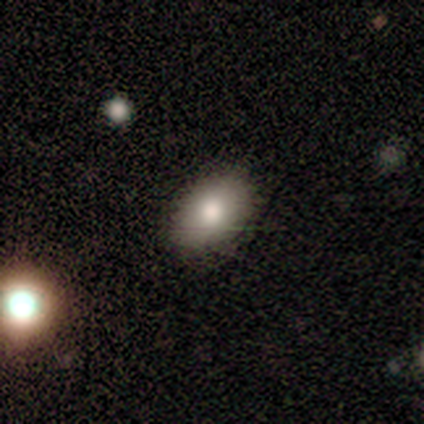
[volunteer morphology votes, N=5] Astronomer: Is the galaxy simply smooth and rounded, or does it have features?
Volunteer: smooth — 80%.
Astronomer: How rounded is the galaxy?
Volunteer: in between — 100%.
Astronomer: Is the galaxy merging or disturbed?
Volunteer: none — 100%.